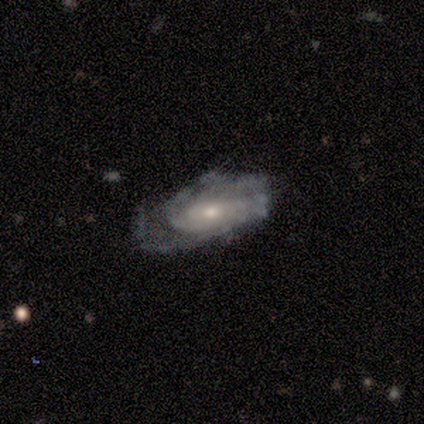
smooth_or_featured: featured or disk (p=0.80) [alt: smooth p=0.20]
disk_edge_on: no (p=1.00)
bar: no (p=0.50) [alt: strong p=0.25]
has_spiral_arms: yes (p=1.00)
spiral_winding: tight (p=1.00)
spiral_arm_count: can't tell (p=1.00)
bulge_size: moderate (p=0.50) [alt: small p=0.25]
merging: none (p=0.40) [tied with: major disturbance p=0.40]